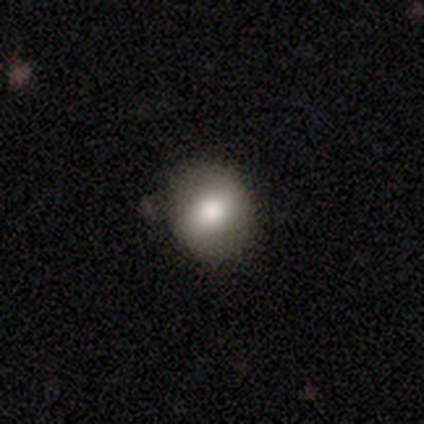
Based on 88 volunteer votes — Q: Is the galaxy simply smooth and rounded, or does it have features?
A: smooth — 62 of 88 (70%).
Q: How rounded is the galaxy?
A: round — 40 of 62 (65%).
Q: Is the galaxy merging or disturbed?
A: none — 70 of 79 (89%).